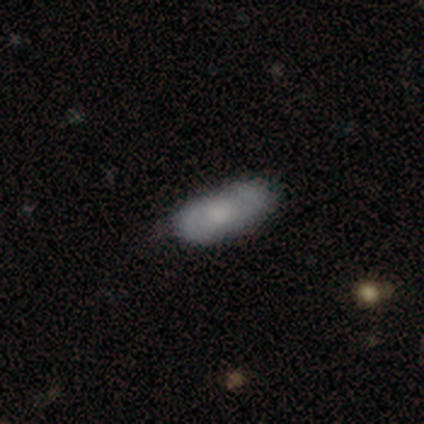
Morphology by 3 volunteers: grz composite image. It shows a smooth galaxy with no disk features (67%) that is in between round and cigar-shaped (100%). Merging: none (100%).